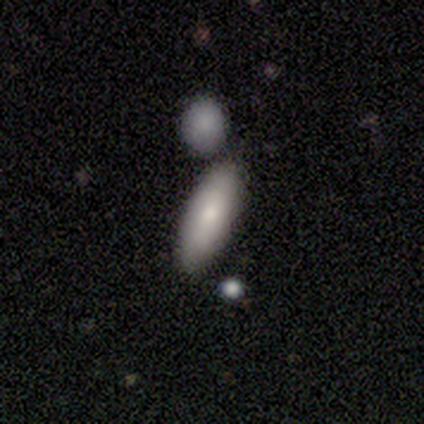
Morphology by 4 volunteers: This appears to be a smooth galaxy with no disk features (75%) that is in between round and cigar-shaped (100%). Merging: none (75%).